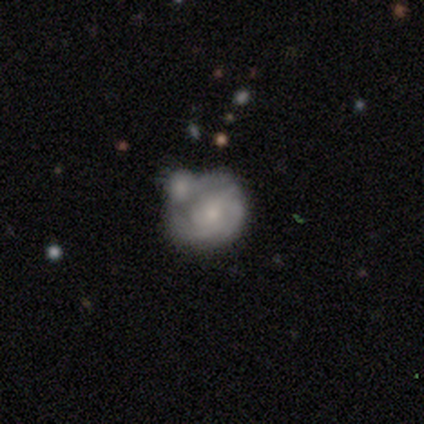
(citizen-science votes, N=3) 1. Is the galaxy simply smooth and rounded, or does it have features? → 33% smooth (tied), 33% featured or disk (tied), 33% star or artifact (tied).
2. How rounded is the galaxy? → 100% in between, 0% round, 0% cigar-shaped.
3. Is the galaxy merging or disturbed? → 50% none (tied), 50% major disturbance (tied), 0% minor disturbance, 0% merger.